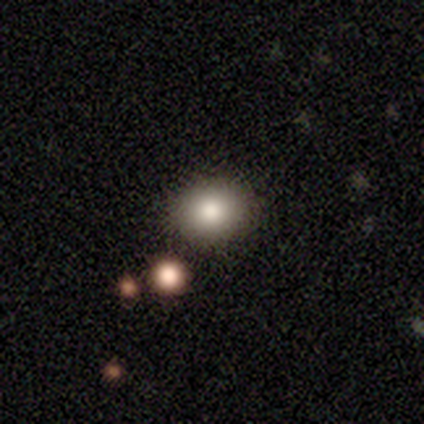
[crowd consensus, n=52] smooth_or_featured: smooth (p=0.87) [alt: featured or disk p=0.13]
how_rounded: round (p=0.58) [alt: in between p=0.42]
merging: none (p=0.90) [alt: minor disturbance p=0.06]